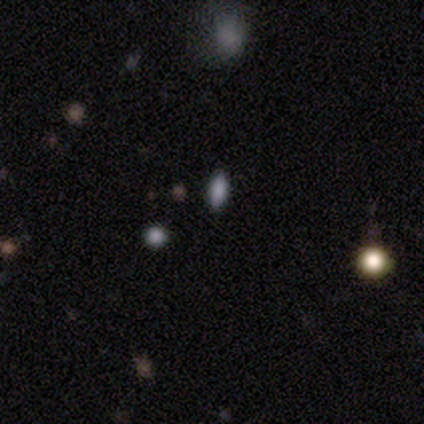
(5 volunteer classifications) This is likely a smooth galaxy (60%). How rounded: likely in between (67%). Merging: possibly none (50%, tied with minor disturbance).